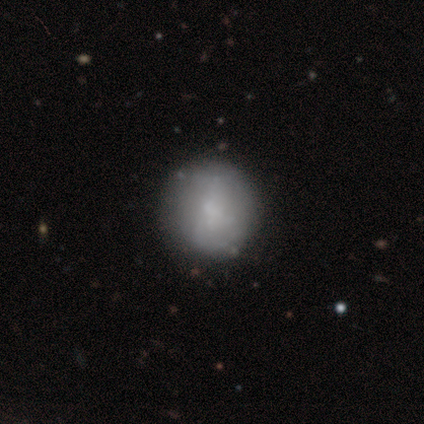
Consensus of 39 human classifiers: A smooth galaxy with no disk features (56%) that is round (95%). Merging: none (86%).